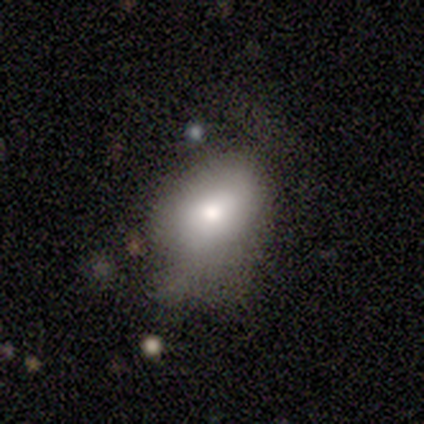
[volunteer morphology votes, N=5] A smooth galaxy with no disk features (80%) that is in between round and cigar-shaped (100%).

Vote fractions:
- Smooth or featured? smooth: 80% / star or artifact: 20% / featured or disk: 0%
- How rounded? in between: 100% / round: 0% / cigar-shaped: 0%
- Merging? none: 50% (tied) / minor disturbance: 50% (tied) / major disturbance: 0% / merger: 0%